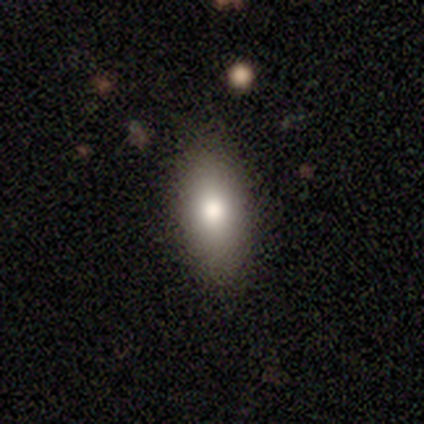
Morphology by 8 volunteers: Smooth or featured: smooth — 62% (featured or disk — 38%)
How rounded: in between — 100%
Merging: none — 88% (minor disturbance — 12%)